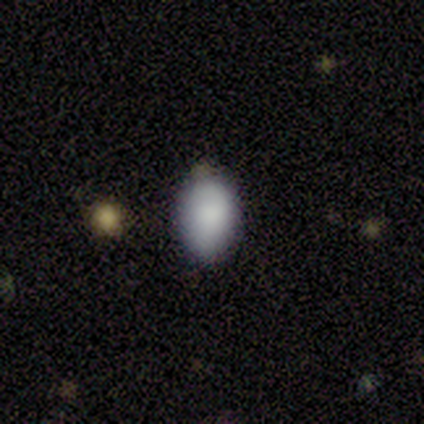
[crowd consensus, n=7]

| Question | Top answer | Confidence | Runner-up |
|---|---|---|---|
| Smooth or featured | smooth | 86% | star or artifact (14%) |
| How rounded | in between | 67% | round (33%) |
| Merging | none | 67% | minor disturbance (33%) |